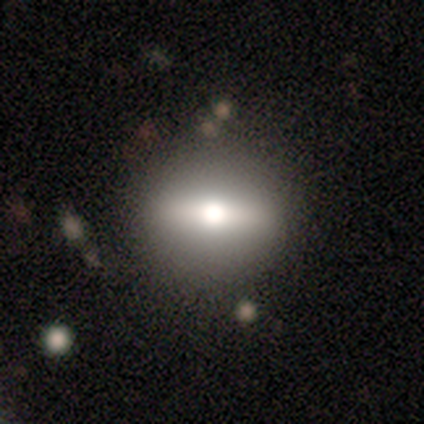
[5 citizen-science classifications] Overall: featured or disk (80%). Edge-on disk: yes (100%). Edge-on bulge: rounded (100%). Merging: none (75%).